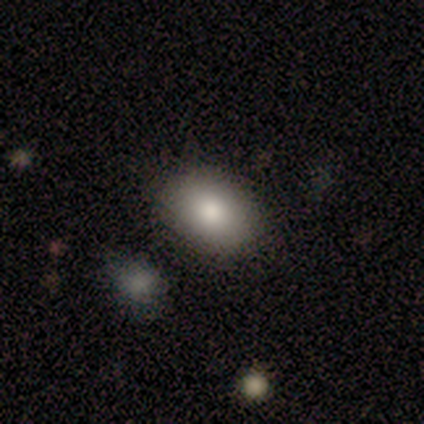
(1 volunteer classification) Smooth or featured? 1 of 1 (100%) said smooth. How rounded? 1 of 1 (100%) said in between. Merging? 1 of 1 (100%) said none.